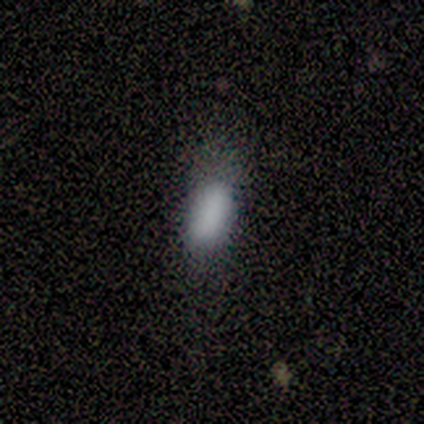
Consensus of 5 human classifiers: This is clearly a smooth galaxy (100%). How rounded: clearly in between (80%). Merging: clearly none (100%).